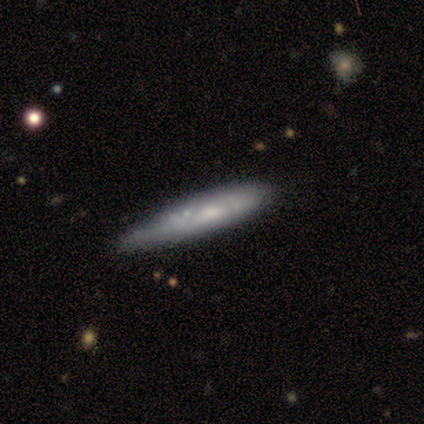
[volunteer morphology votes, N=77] Smooth or featured: smooth — 61% (featured or disk — 38%)
How rounded: cigar-shaped — 96% (in between — 4%)
Merging: none — 46% (minor disturbance — 34%)